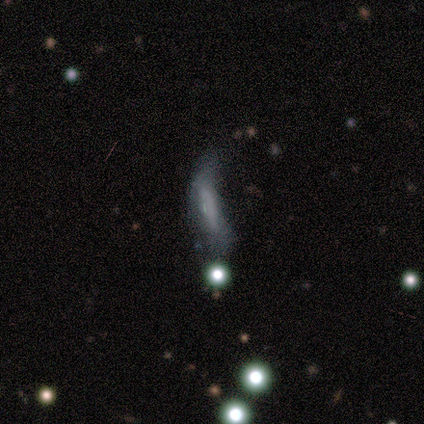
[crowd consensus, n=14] Smooth or featured: smooth — 43% (tied with featured or disk — 43%)
How rounded: in between — 50% (tied with cigar-shaped — 50%)
Merging: minor disturbance — 42% (tied with major disturbance — 42%)